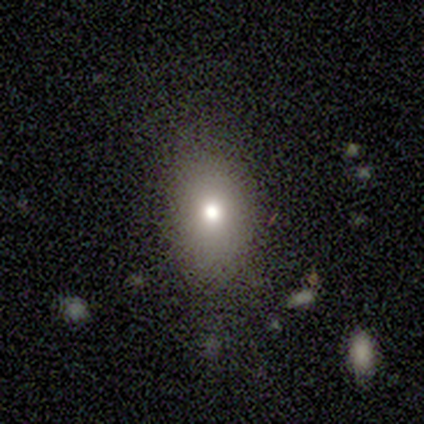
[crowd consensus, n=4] smooth 100%, featured or disk 0%, star or artifact 0%. Down the decision tree: how rounded — in between (50%); merging — none (100%).